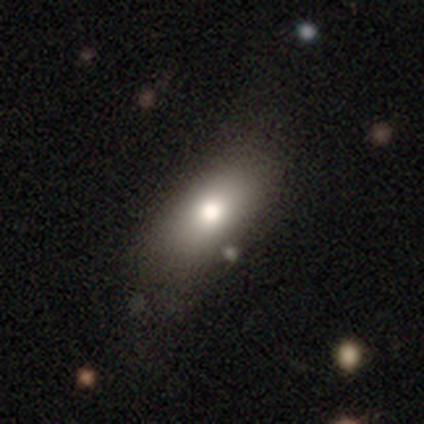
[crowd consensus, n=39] smooth 69%, featured or disk 23%, star or artifact 8%. Down the decision tree: how rounded — in between (100%); merging — none (56%).